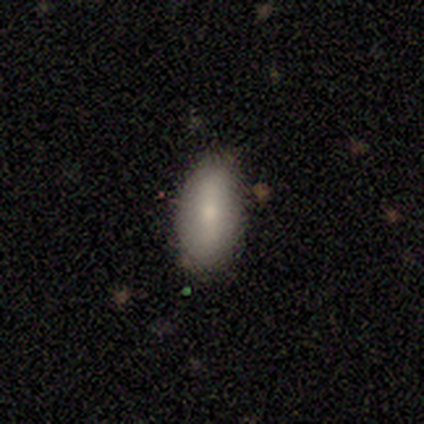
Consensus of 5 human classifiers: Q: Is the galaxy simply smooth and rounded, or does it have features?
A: smooth — 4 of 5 (80%).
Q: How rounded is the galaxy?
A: in between — 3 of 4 (75%).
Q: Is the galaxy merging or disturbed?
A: none — 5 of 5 (100%).